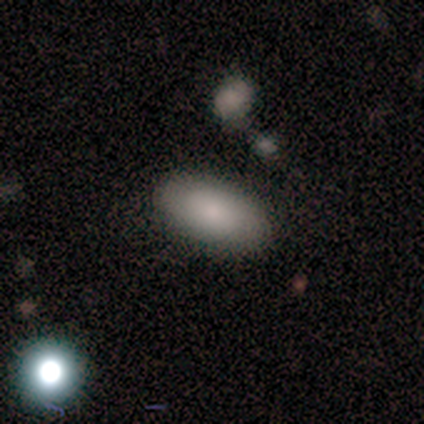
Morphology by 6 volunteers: smooth_or_featured: smooth (p=1.00)
how_rounded: in between (p=1.00)
merging: none (p=0.83) [alt: minor disturbance p=0.17]